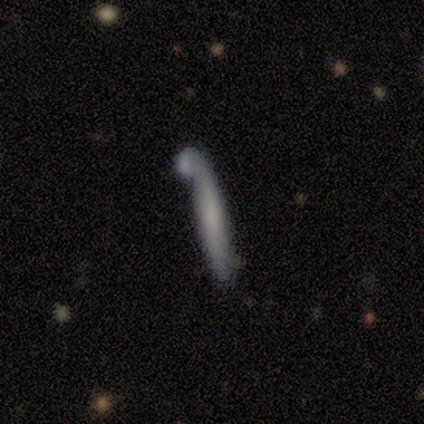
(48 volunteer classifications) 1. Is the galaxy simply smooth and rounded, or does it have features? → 50% smooth, 46% featured or disk, 4% star or artifact.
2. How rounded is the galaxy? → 100% cigar-shaped, 0% round, 0% in between.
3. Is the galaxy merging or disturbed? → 35% none, 33% merger, 17% minor disturbance, 15% major disturbance.